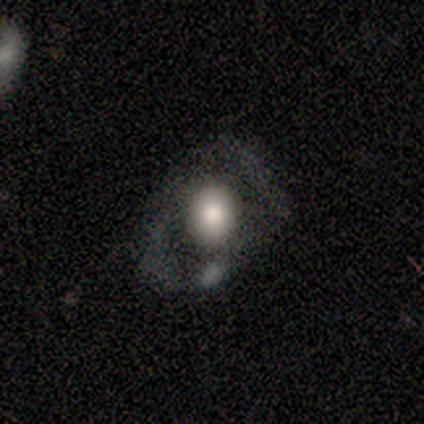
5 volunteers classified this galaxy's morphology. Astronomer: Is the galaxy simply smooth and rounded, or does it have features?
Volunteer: smooth — 60% (runner-up: featured or disk, 40%).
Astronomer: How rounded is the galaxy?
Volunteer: round — 67%.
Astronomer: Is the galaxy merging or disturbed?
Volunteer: minor disturbance — 60%.